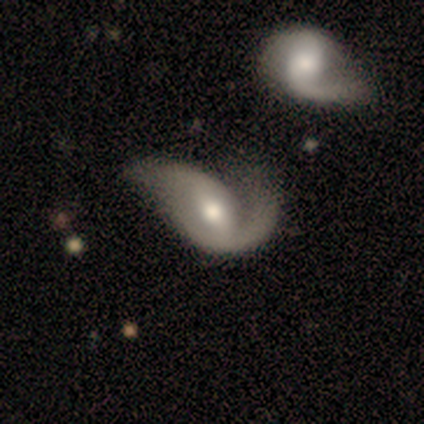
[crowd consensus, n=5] Smooth or featured? featured or disk (80%)
Edge-on disk? no (100%)
Bar? strong (50%)
Spiral arms? yes (100%)
Spiral winding? loose (100%)
Spiral arm count? 2 (100%)
Bulge size? moderate (100%)
Merging? none (80%)